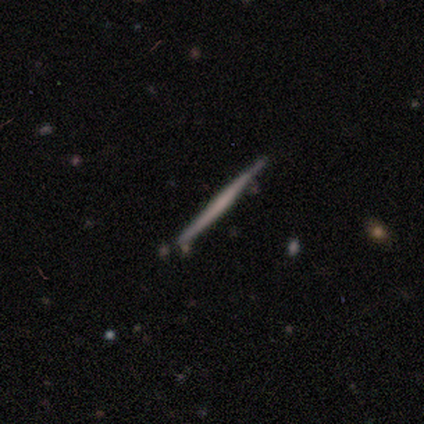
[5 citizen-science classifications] A featured or disk galaxy (60%) viewed edge-on (100%) with no central bulge (100%). Merging: none (80%).